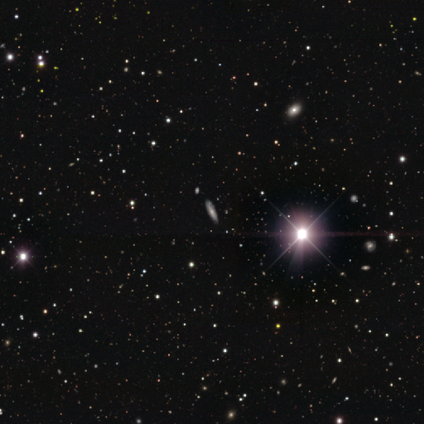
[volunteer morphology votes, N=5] Volunteers were most divided on "smooth or featured" (2-way tie): featured or disk: 40%, star or artifact: 40%, smooth: 20%; "edge-on disk" (2-way tie): yes: 50%, no: 50%. More confident: edge-on bulge — rounded (100%); merging — none (67%).